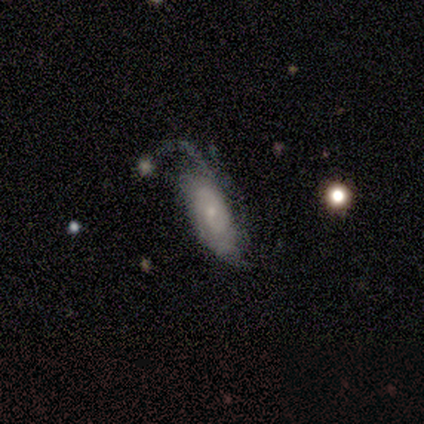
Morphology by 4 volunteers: Smooth or featured: featured or disk — 75% (smooth — 25%)
Edge-on disk: no — 67% (yes — 33%)
Bar: weak — 50% (tied with no — 50%)
Spiral arms: yes — 100%
Spiral winding: tight — 100%
Spiral arm count: 2 — 50% (tied with can't tell — 50%)
Bulge size: large — 50% (tied with small — 50%)
Merging: minor disturbance — 50% (tied with major disturbance — 50%)